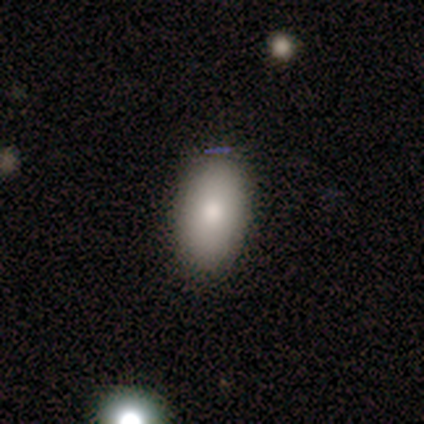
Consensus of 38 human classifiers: Morphology: type=smooth (84%); roundness=in between (91%); merging=none (86%).